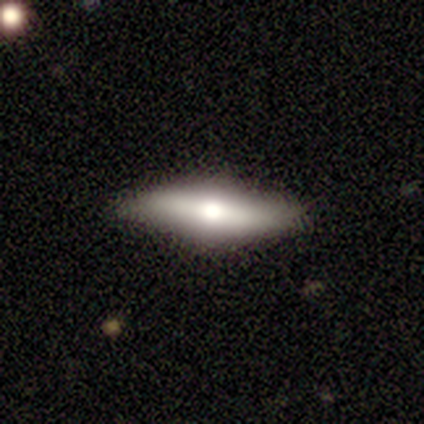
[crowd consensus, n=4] smooth 50% (tied), featured or disk 50% (tied), star or artifact 0%. Down the decision tree: how rounded — cigar-shaped (100%); merging — none (100%).